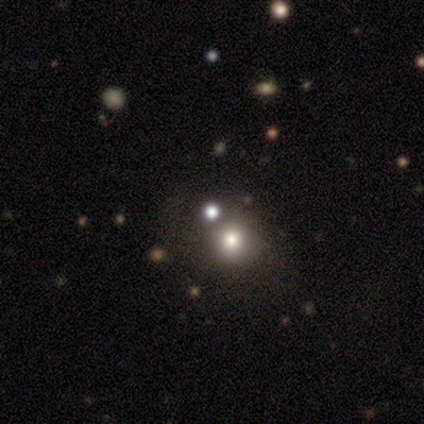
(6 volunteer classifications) Morphology: type=smooth (67%); roundness=round (100%); merging=none (80%).